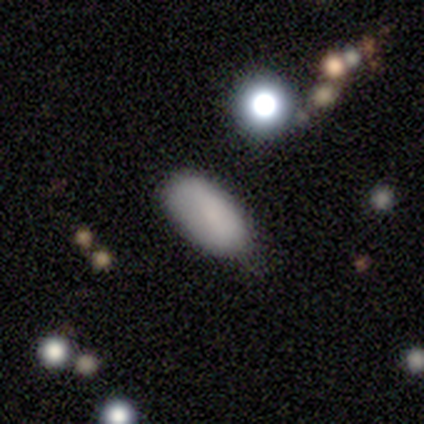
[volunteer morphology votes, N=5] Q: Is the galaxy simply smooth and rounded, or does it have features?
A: smooth — 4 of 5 (80%).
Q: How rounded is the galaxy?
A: in between — 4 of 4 (100%).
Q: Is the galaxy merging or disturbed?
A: none — 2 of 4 (50%, tied with minor disturbance).